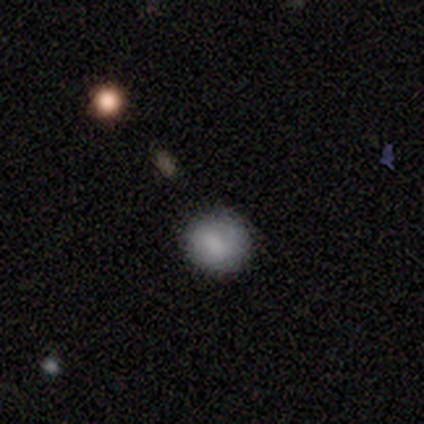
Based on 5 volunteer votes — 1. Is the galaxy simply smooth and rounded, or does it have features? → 80% smooth, 20% featured or disk, 0% star or artifact.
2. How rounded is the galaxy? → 100% round, 0% in between, 0% cigar-shaped.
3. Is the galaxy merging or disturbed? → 100% none, 0% minor disturbance, 0% major disturbance, 0% merger.